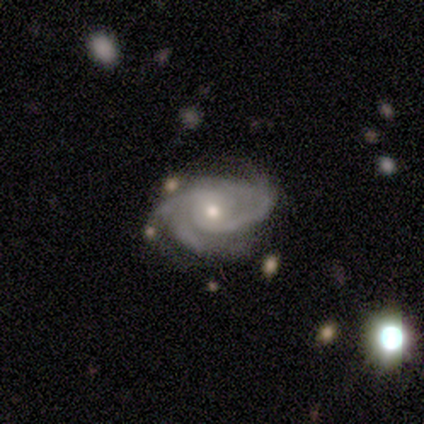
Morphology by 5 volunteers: smooth-or-featured: featured or disk: 100% | smooth: 0% | star or artifact: 0%
  disk-edge-on: no: 100% | yes: 0%
    bar: no: 80% | weak: 20% | strong: 0%
    has-spiral-arms: yes: 100% | no: 0%
      spiral-winding: medium: 60% | tight: 40% | loose: 0%
      spiral-arm-count: 2: 60% | 3: 40% | 1: 0% | 4: 0% | more than 4: 0% | can't tell: 0%
    bulge-size: small: 60% | moderate: 40% | dominant: 0% | large: 0% | none: 0%
  merging: none: 80% | major disturbance: 20% | minor disturbance: 0% | merger: 0%